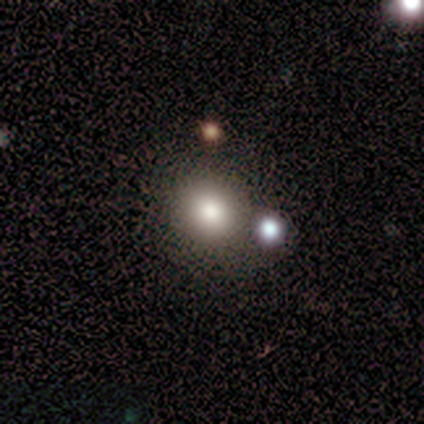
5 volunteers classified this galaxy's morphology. smooth_or_featured: smooth (p=0.80) [alt: star or artifact p=0.20]
how_rounded: round (p=0.75) [alt: in between p=0.25]
merging: none (p=0.50) [alt: minor disturbance p=0.25]